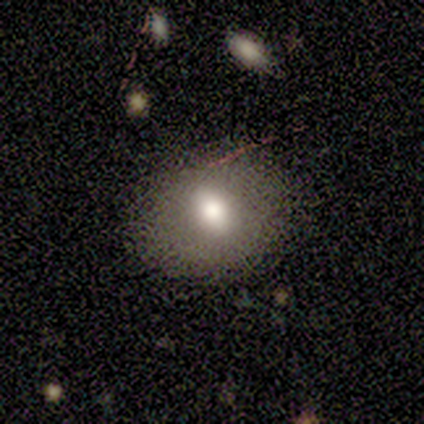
Smooth or featured? 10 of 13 (77%) said smooth. How rounded? 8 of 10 (80%) said in between. Merging? 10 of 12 (83%) said none.